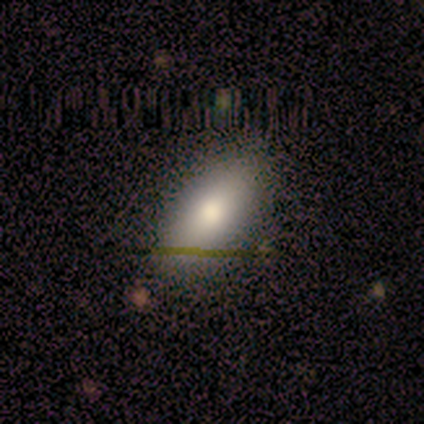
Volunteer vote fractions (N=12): Smooth or featured? 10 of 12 (83%) said smooth. How rounded? 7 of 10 (70%) said in between. Merging? 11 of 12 (92%) said none.